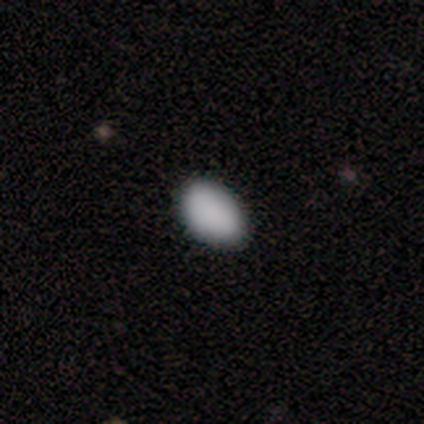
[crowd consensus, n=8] A smooth galaxy with no disk features (100%) that is in between round and cigar-shaped (100%).

Vote fractions:
- Smooth or featured? smooth: 100% / featured or disk: 0% / star or artifact: 0%
- How rounded? in between: 100% / round: 0% / cigar-shaped: 0%
- Merging? none: 88% / minor disturbance: 12% / major disturbance: 0% / merger: 0%